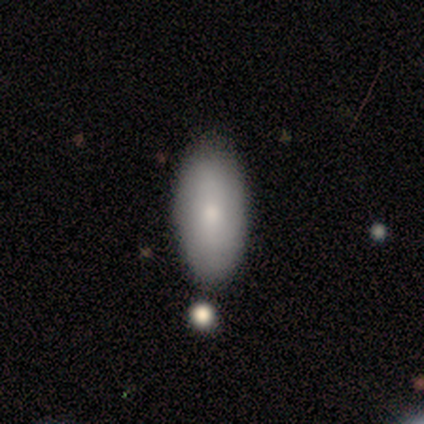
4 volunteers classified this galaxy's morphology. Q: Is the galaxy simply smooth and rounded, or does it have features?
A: smooth — 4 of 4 (100%).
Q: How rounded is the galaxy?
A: in between — 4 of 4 (100%).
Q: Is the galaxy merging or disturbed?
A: none — 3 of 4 (75%).